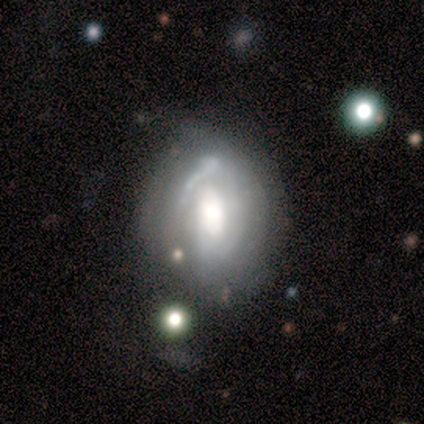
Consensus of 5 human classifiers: Smooth or featured: featured or disk — 80% (smooth — 20%)
Edge-on disk: no — 100%
Bar: no — 75% (weak — 25%)
Spiral arms: yes — 50% (tied with no — 50%)
Spiral winding: tight — 100%
Spiral arm count: 1 — 50% (tied with 3 — 50%)
Bulge size: large — 75% (moderate — 25%)
Merging: none — 40% (minor disturbance — 20%)